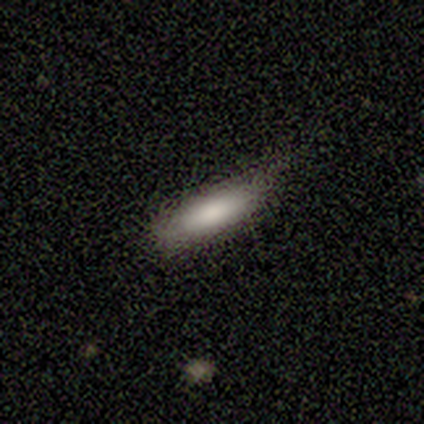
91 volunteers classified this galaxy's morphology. A smooth galaxy with no disk features (85%) that is cigar-shaped (58%).

Vote fractions:
- Smooth or featured? smooth: 85% / featured or disk: 9% / star or artifact: 7%
- How rounded? cigar-shaped: 58% / in between: 42% / round: 0%
- Merging? none: 49% / minor disturbance: 47% / major disturbance: 4% / merger: 0%